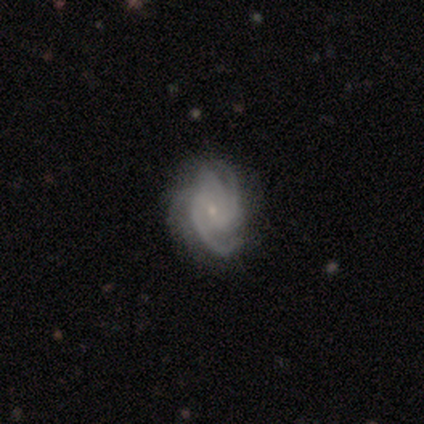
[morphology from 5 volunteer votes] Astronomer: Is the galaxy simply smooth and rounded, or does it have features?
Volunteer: featured or disk — 80%.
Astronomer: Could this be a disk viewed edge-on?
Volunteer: no — 100%.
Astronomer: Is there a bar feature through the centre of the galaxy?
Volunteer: no — 75%.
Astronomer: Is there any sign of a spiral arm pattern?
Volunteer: yes — 100%.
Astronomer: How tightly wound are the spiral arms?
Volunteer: medium — 75%.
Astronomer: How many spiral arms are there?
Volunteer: can't tell — 75%.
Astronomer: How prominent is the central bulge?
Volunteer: small — 100%.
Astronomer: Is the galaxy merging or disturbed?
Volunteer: none — 100%.